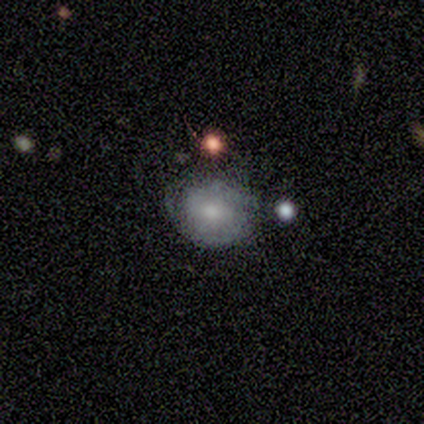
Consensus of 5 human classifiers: Smooth or featured: smooth — 40% (tied with featured or disk — 40%)
How rounded: round — 50% (tied with in between — 50%)
Merging: none — 50% (minor disturbance — 25%)